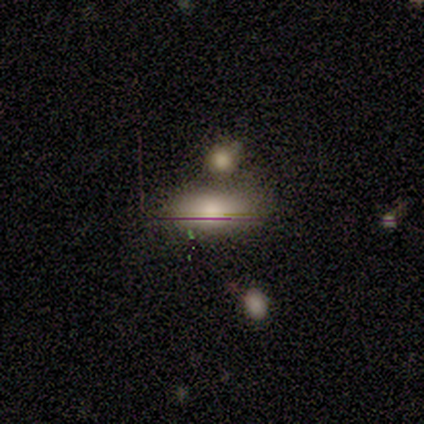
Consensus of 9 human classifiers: Smooth or featured? 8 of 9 (89%) said smooth. How rounded? 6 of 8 (75%) said in between. Merging? 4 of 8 (50%) said none.